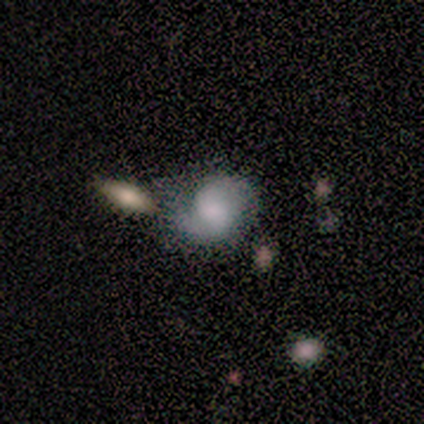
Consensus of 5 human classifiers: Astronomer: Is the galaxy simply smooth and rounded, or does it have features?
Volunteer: featured or disk — 60%.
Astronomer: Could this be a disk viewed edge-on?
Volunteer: no — 100%.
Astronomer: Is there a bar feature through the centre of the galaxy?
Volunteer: no — 67%.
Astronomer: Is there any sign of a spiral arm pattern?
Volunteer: yes — 100%.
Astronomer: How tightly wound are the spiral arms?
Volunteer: tight — 33%, tied with medium and loose at 33%.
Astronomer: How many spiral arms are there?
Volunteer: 2 — 100%.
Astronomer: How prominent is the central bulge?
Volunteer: moderate — 67%.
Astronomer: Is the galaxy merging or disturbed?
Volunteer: none — 50%.